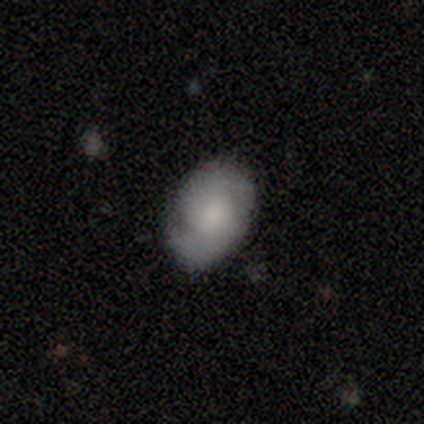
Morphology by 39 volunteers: This appears to be a featured or disk galaxy (56%) with no bar (68%), 2 (71%) tight (52%) spiral arms (95%) and a large central bulge (36%). Merging: none (81%).